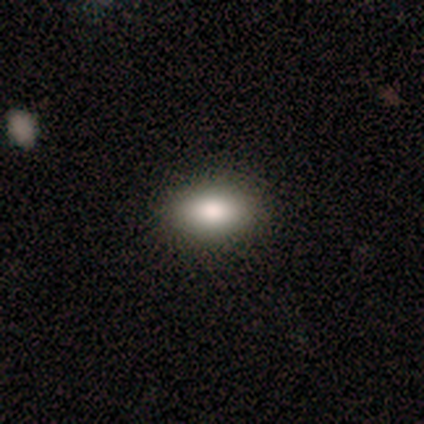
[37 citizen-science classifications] Smooth or featured?
  - smooth: 76% *
  - star or artifact: 16%
  - featured or disk: 8%
How rounded?
  - in between: 93% *
  - round: 4%
  - cigar-shaped: 4%
Merging?
  - none: 94% *
  - minor disturbance: 6%
  - major disturbance: 0%
  - merger: 0%